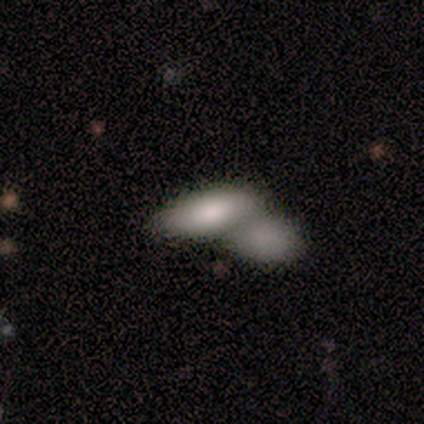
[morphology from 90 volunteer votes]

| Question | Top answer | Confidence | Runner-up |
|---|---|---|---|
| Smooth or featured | smooth | 77% | featured or disk (14%) |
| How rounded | in between | 81% | cigar-shaped (16%) |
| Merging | merger | 71% | none (23%) |